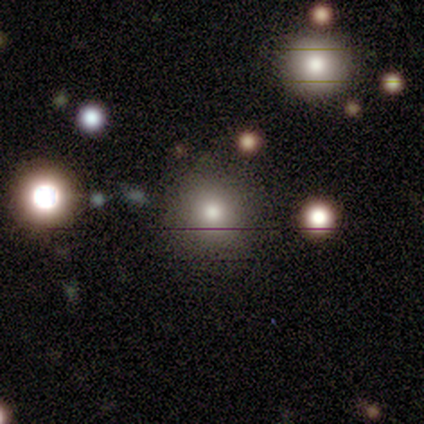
Volunteers were most divided on "merging": none: 61%, minor disturbance: 6%, major disturbance: 6%, merger: 3%. More confident: how rounded — round (100%); smooth or featured — smooth (78%).